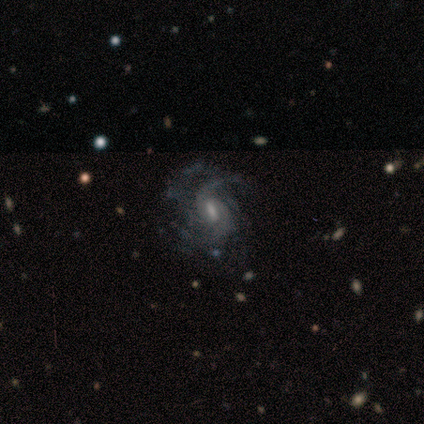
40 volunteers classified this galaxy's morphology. Smooth or featured?
  - featured or disk: 85% *
  - star or artifact: 12%
  - smooth: 2%
Edge-on disk?
  - no: 100% *
  - yes: 0%
Bar?
  - weak: 68% *
  - no: 18%
  - strong: 15%
Spiral arms?
  - yes: 100% *
  - no: 0%
Spiral winding?
  - medium: 47% *
  - tight: 26%
  - loose: 26%
Spiral arm count?
  - 2: 29% *
  - can't tell: 24%
  - 3: 21%
  - 4: 21%
  - 1: 3%
  - more than 4: 3%
Bulge size?
  - small: 44% *
  - moderate: 38%
  - none: 15%
  - large: 3%
  - dominant: 0%
Merging?
  - none: 71% *
  - minor disturbance: 14%
  - major disturbance: 11%
  - merger: 3%